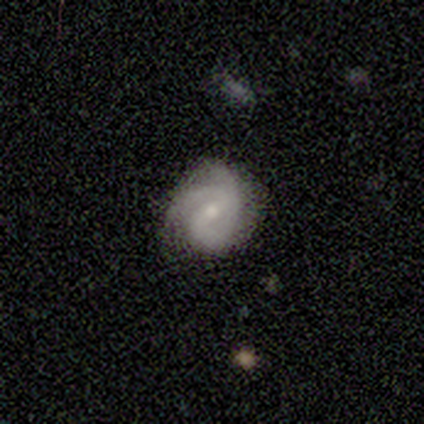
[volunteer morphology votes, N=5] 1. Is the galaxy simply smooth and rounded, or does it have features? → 40% smooth (tied), 40% featured or disk (tied), 20% star or artifact.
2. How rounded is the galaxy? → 100% round, 0% in between, 0% cigar-shaped.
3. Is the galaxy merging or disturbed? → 75% none, 25% minor disturbance, 0% major disturbance, 0% merger.